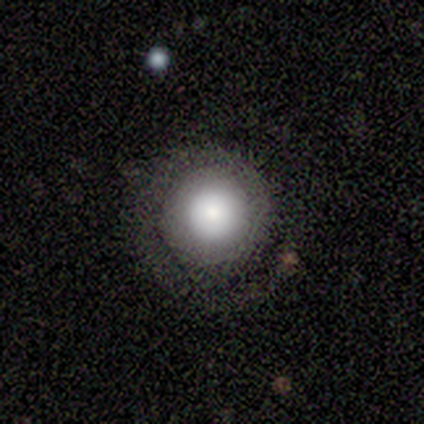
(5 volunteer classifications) Volunteers were most divided on "smooth or featured": smooth: 80%, featured or disk: 20%, star or artifact: 0%. More confident: how rounded — round (100%); merging — none (80%).